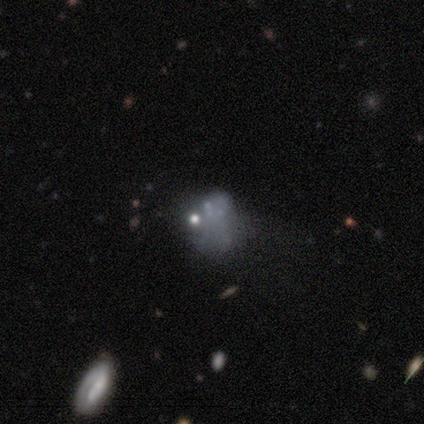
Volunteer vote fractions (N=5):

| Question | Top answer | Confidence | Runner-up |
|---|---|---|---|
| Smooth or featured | featured or disk | 60% | star or artifact (40%) |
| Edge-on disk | no | 100% | — |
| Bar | no | 100% | — |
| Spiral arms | no | 100% | — |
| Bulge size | none | 67% | small (33%) |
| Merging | none | 67% | merger (33%) |